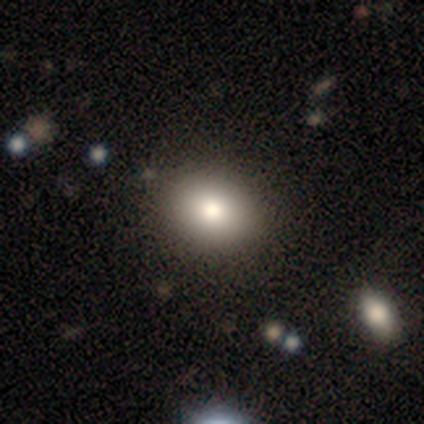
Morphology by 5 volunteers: smooth 40% (tied), star or artifact 40% (tied), featured or disk 20%. Down the decision tree: how rounded — in between (100%); merging — none (67%).